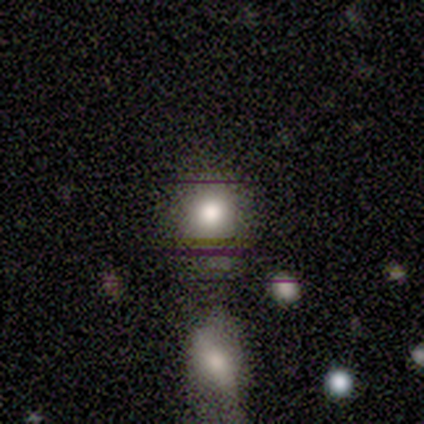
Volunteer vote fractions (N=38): This is likely a smooth galaxy (71%). How rounded: clearly round (89%). Merging: possibly none (54%).